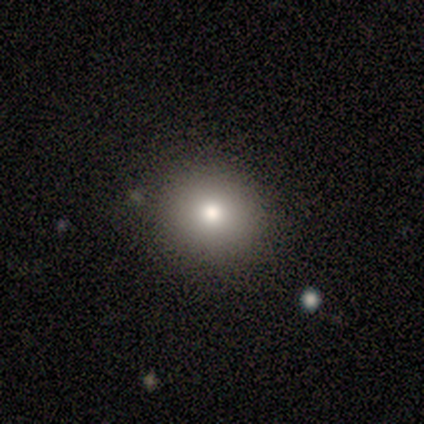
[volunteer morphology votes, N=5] This is likely a smooth galaxy (60%). How rounded: likely round (67%). Merging: clearly none (100%).